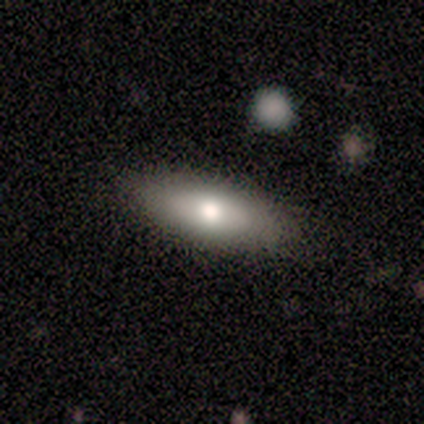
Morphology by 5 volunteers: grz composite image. It shows a smooth galaxy with no disk features (100%) that is in between round and cigar-shaped (80%). Merging: none (80%).